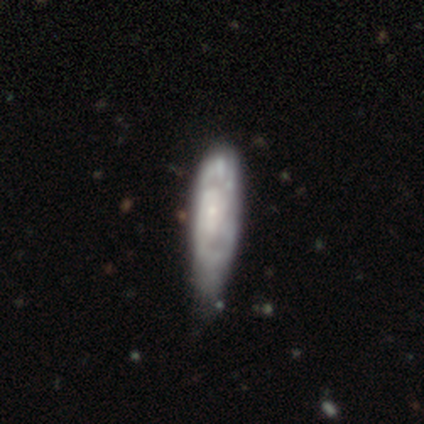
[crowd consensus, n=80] Smooth or featured? featured or disk (66%)
Edge-on disk? no (85%)
Bar? no (73%)
Spiral arms? yes (69%)
Spiral winding? tight (58%)
Spiral arm count? can't tell (68%)
Bulge size? small (64%)
Merging? minor disturbance (27%)